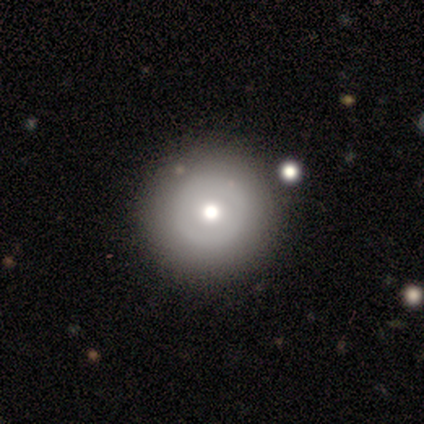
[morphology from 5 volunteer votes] This is clearly a smooth galaxy (80%). How rounded: clearly round (100%). Merging: likely none (60%).